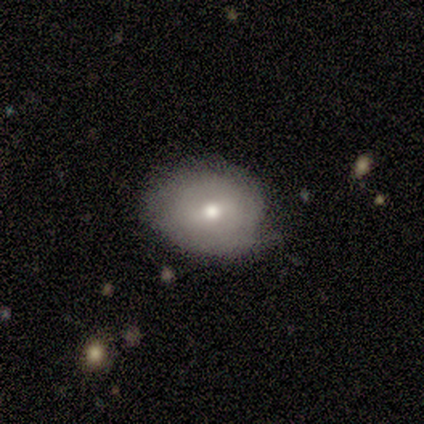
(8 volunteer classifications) Q: Smooth or featured?
A: featured or disk (50%); runner-up: smooth (38%)
Q: Edge-on disk?
A: no (100%)
Q: Bar?
A: weak (50%); tied with: no (50%)
Q: Spiral arms?
A: no (75%); runner-up: yes (25%)
Q: Bulge size?
A: moderate (75%); runner-up: large (25%)
Q: Merging?
A: none (57%); runner-up: minor disturbance (29%)